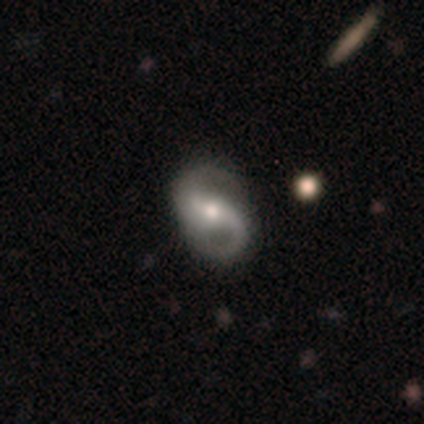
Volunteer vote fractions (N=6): A featured or disk galaxy (100%) with no bar (67%), 2 (83%) loose (50%) spiral arms (100%) and a moderate central bulge (67%).

Vote fractions:
- Smooth or featured? featured or disk: 100% / smooth: 0% / star or artifact: 0%
- Edge-on disk? no: 100% / yes: 0%
- Bar? no: 67% / strong: 17% / weak: 17%
- Spiral arms? yes: 100% / no: 0%
- Spiral winding? loose: 50% / medium: 33% / tight: 17%
- Spiral arm count? 2: 83% / can't tell: 17% / 1: 0% / 3: 0% / 4: 0% / more than 4: 0%
- Bulge size? moderate: 67% / small: 33% / dominant: 0% / large: 0% / none: 0%
- Merging? none: 50% (tied) / minor disturbance: 50% (tied) / major disturbance: 0% / merger: 0%